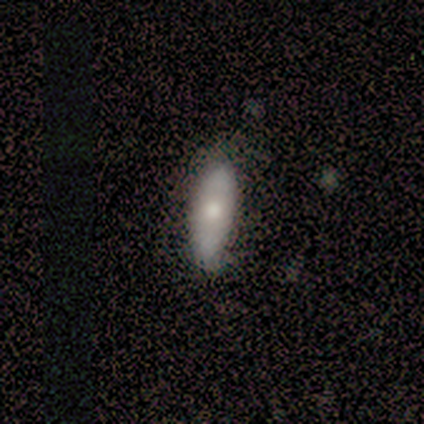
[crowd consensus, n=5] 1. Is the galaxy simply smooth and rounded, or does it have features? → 60% featured or disk, 40% smooth, 0% star or artifact.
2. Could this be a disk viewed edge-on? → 67% no, 33% yes.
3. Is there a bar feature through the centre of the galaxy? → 100% no, 0% strong, 0% weak.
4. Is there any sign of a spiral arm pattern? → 100% no, 0% yes.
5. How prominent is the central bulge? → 50% moderate (tied), 50% small (tied), 0% dominant, 0% large, 0% none.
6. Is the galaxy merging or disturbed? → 60% minor disturbance, 40% none, 0% major disturbance, 0% merger.